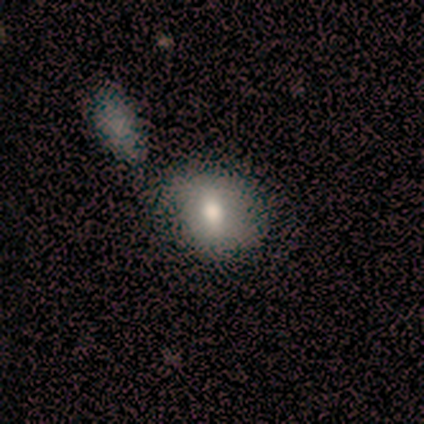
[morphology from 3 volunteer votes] Smooth or featured? featured or disk (67%)
Edge-on disk? no (100%)
Bar? strong (50%, tied with no)
Spiral arms? no (100%)
Bulge size? moderate (100%)
Merging? none (67%)